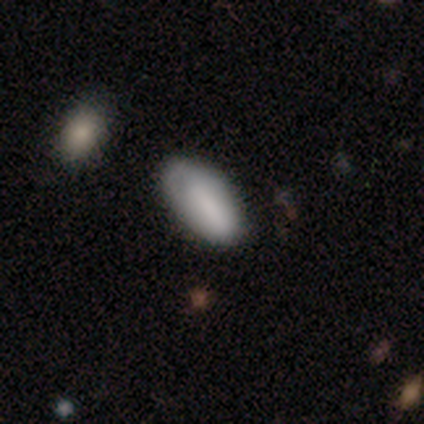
Morphology: type=smooth (83%); roundness=in between (100%); merging=none (64%).